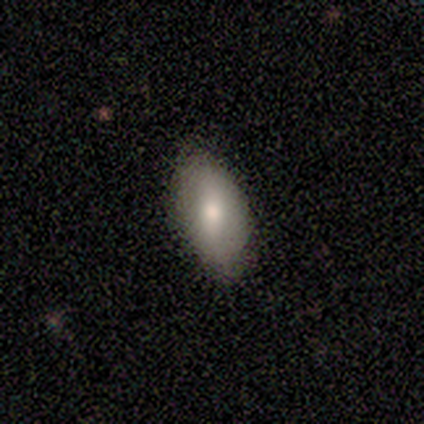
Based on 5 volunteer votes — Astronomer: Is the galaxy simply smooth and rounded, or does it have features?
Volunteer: smooth — 100%.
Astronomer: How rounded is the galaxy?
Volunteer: in between — 100%.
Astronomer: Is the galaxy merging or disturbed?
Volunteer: none — 80%.